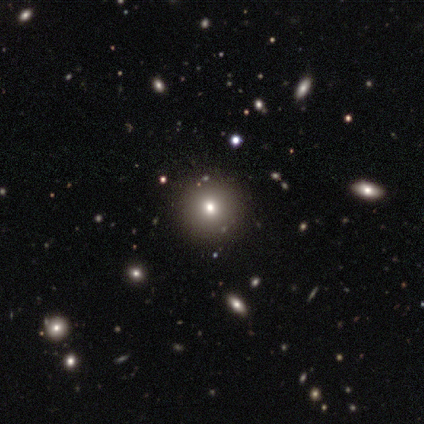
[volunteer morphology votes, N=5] A smooth galaxy with no disk features (80%) that is round (100%). Merging: none (100%).